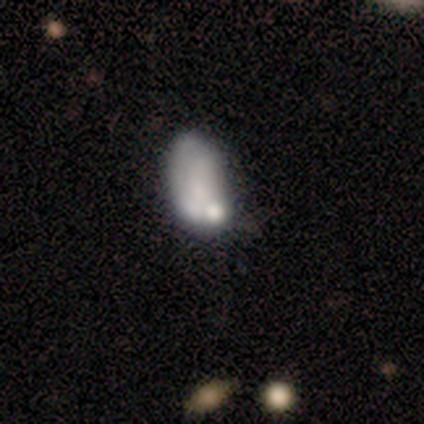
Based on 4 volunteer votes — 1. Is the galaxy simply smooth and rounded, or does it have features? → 75% smooth, 25% featured or disk, 0% star or artifact.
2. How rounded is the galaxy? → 100% in between, 0% round, 0% cigar-shaped.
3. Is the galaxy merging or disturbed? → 50% minor disturbance, 25% none, 25% merger, 0% major disturbance.